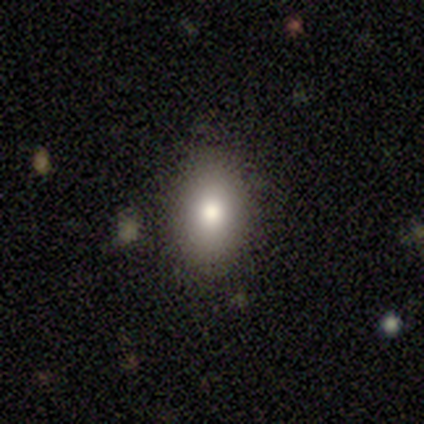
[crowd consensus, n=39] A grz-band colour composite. It shows a smooth galaxy with no disk features (85%) that is in between round and cigar-shaped (88%). Merging: none (89%).